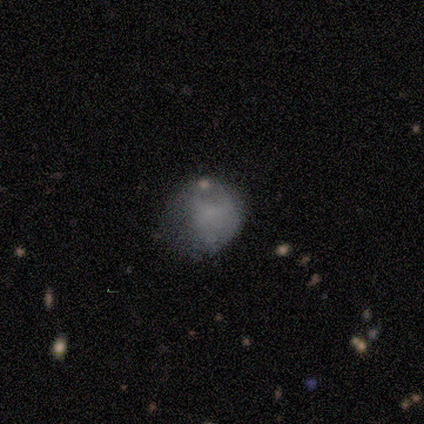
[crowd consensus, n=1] A star or artifact, not a galaxy (100%).